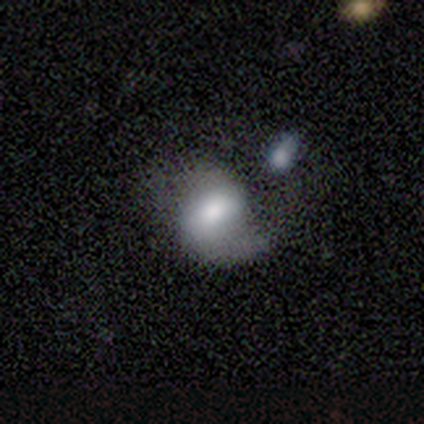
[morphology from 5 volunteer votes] Smooth or featured? 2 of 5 (40%, tied with featured or disk) said smooth. How rounded? 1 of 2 (50%, tied with in between) said round. Merging? 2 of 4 (50%, tied with merger) said major disturbance.